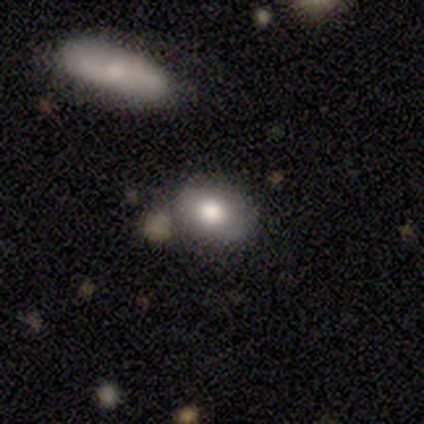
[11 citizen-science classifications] This appears to be a smooth galaxy with no disk features (73%) that is in between round and cigar-shaped (100%). Merging: none (89%).